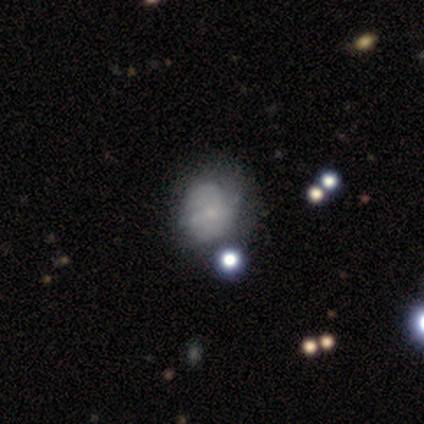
A smooth galaxy with no disk features (71%) that is round (80%). Merging: none (67%).